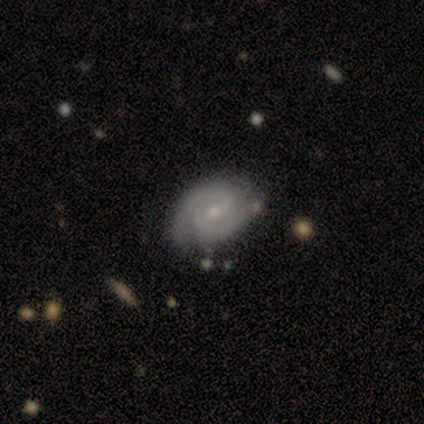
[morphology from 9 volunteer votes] Q: Smooth or featured?
A: featured or disk (89%); runner-up: smooth (11%)
Q: Edge-on disk?
A: no (88%); runner-up: yes (12%)
Q: Bar?
A: no (86%); runner-up: strong (14%)
Q: Spiral arms?
A: yes (100%)
Q: Spiral winding?
A: medium (57%); runner-up: tight (43%)
Q: Spiral arm count?
A: 2 (86%); runner-up: 4 (14%)
Q: Bulge size?
A: small (86%); runner-up: moderate (14%)
Q: Merging?
A: none (78%); runner-up: minor disturbance (11%)